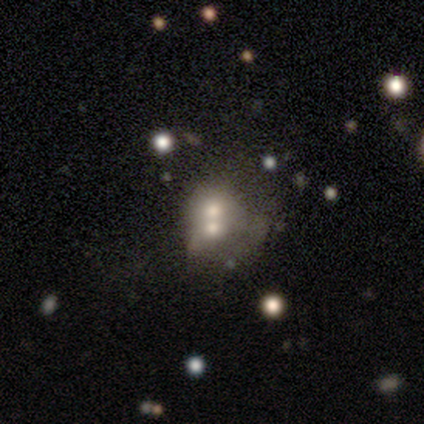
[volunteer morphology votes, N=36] type=smooth (67%); roundness=in between (54%); merging=merger (62%).